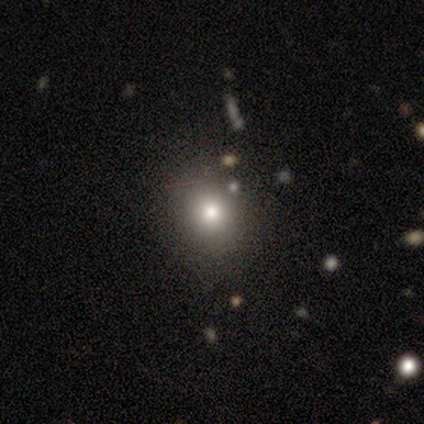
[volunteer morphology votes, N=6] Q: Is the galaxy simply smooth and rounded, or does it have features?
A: smooth — 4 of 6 (67%).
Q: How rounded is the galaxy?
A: round — 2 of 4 (50%, tied with in between).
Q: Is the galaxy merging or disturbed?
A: none — 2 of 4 (50%, tied with minor disturbance).